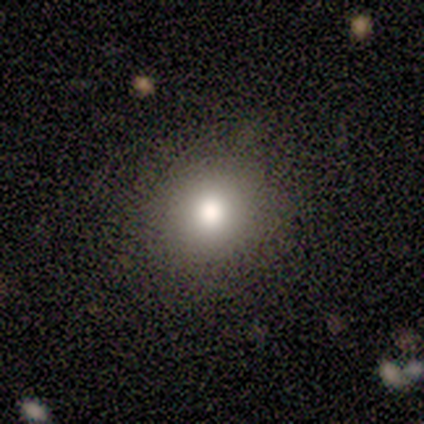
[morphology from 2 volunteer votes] A smooth galaxy with no disk features (100%) that is round (100%).

Vote fractions:
- Smooth or featured? smooth: 100% / featured or disk: 0% / star or artifact: 0%
- How rounded? round: 100% / in between: 0% / cigar-shaped: 0%
- Merging? none: 50% (tied) / minor disturbance: 50% (tied) / major disturbance: 0% / merger: 0%